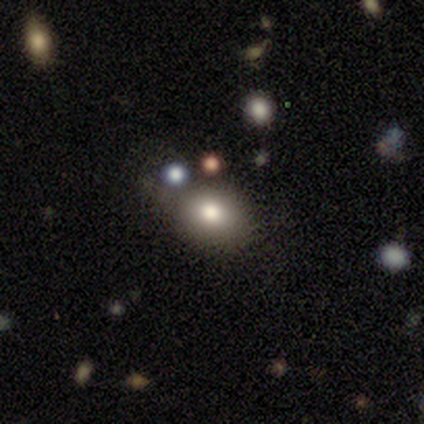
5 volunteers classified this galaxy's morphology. Smooth or featured? smooth (80%)
How rounded? round (100%)
Merging? none (50%)